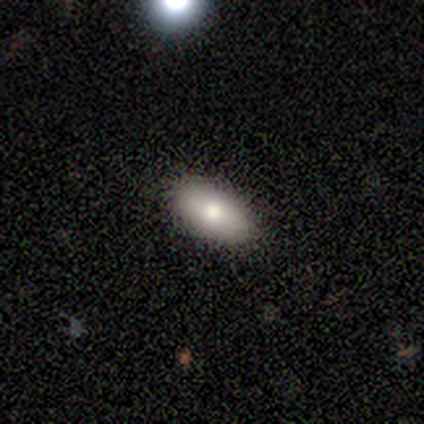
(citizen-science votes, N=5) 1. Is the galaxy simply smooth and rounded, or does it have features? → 60% smooth, 20% featured or disk, 20% star or artifact.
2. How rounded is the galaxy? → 100% in between, 0% round, 0% cigar-shaped.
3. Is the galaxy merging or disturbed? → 75% none, 25% minor disturbance, 0% major disturbance, 0% merger.